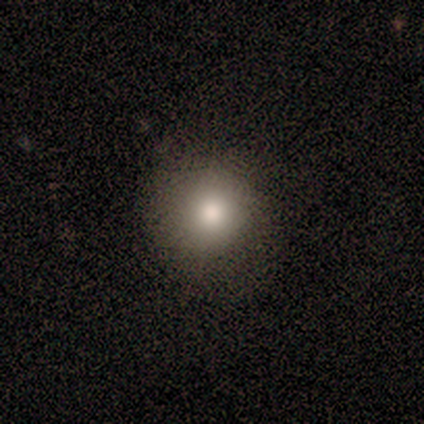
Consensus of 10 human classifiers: A smooth galaxy with no disk features (70%) that is round (100%). Merging: none (86%).